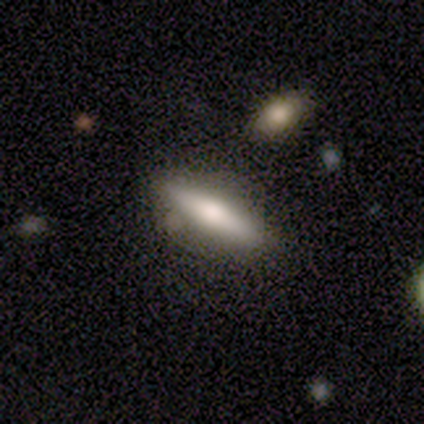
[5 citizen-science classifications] smooth 40% (tied), featured or disk 40% (tied), star or artifact 20%. Down the decision tree: how rounded — in between (50%, tied with cigar-shaped); merging — none (100%).